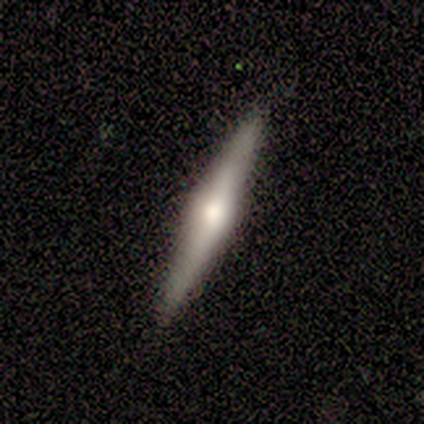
Volunteers were most divided on "edge-on bulge": rounded: 75%, none: 25%, boxy: 0%. More confident: edge-on disk — yes (100%); merging — none (100%); smooth or featured — featured or disk (80%).